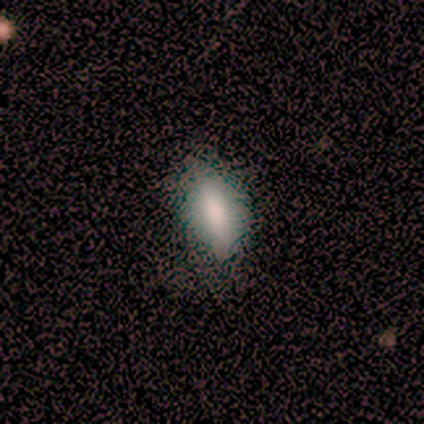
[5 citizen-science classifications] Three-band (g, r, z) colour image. It shows a smooth galaxy with no disk features (60%) that is in between round and cigar-shaped (100%). Merging: none (75%).